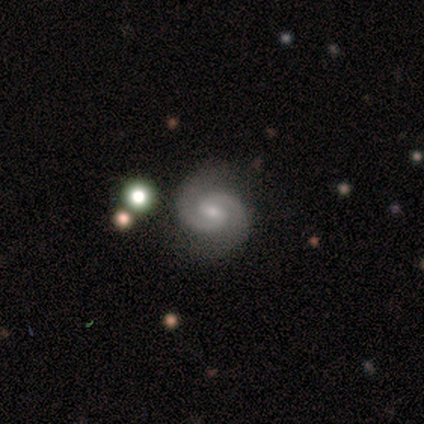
Smooth or featured? featured or disk (100%)
Edge-on disk? no (100%)
Bar? weak (75%)
Spiral arms? yes (100%)
Spiral winding? tight (50%, tied with medium)
Spiral arm count? 2 (100%)
Bulge size? moderate (50%, tied with small)
Merging? none (100%)